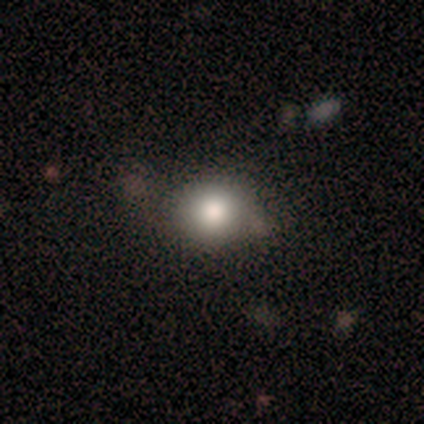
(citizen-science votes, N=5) smooth-or-featured: smooth: 60% | featured or disk: 20% | star or artifact: 20%
  how-rounded: round: 100% | in between: 0% | cigar-shaped: 0%
  merging: none: 50% (tied) | minor disturbance: 50% (tied) | major disturbance: 0% | merger: 0%